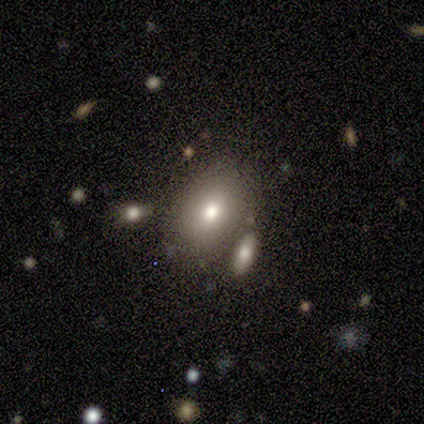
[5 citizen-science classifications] A smooth galaxy with no disk features (40%, tied with featured or disk) that is in between round and cigar-shaped (100%). Merging: none (75%).